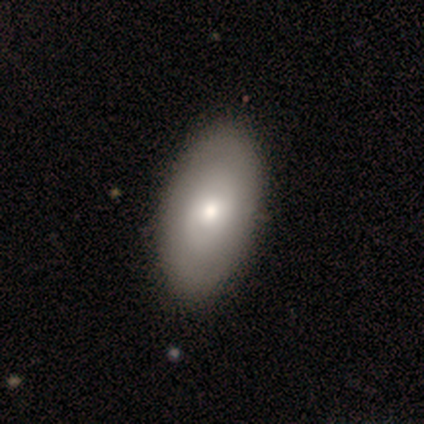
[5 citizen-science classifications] Smooth or featured?
  - smooth: 80% *
  - featured or disk: 20%
  - star or artifact: 0%
How rounded?
  - in between: 100% *
  - round: 0%
  - cigar-shaped: 0%
Merging?
  - none: 80% *
  - minor disturbance: 20%
  - major disturbance: 0%
  - merger: 0%